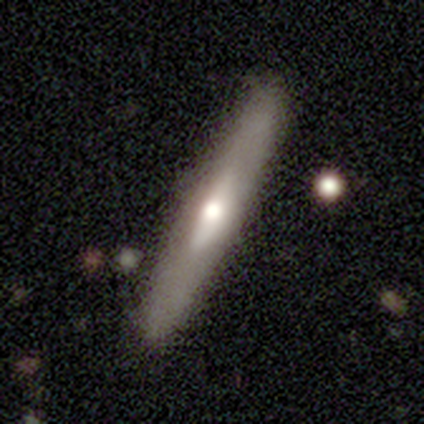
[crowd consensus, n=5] smooth_or_featured: featured or disk (p=0.80) [alt: smooth p=0.20]
disk_edge_on: yes (p=0.75) [alt: no p=0.25]
edge_on_bulge: boxy (p=0.67) [alt: rounded p=0.33]
merging: none (p=1.00)